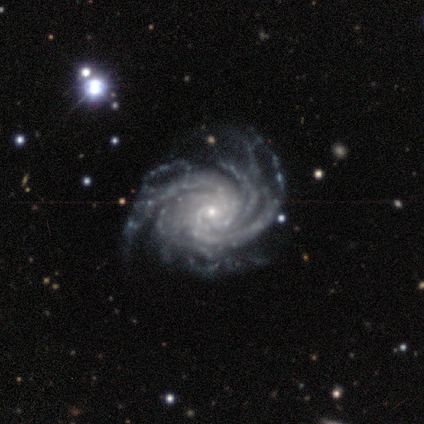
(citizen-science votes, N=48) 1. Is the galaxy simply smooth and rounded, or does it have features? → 98% featured or disk, 2% star or artifact, 0% smooth.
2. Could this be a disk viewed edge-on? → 94% no, 6% yes.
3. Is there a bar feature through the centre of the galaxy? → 77% no, 16% weak, 7% strong.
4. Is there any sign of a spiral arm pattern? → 100% yes, 0% no.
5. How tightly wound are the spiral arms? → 61% tight, 32% medium, 7% loose.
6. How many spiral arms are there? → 45% more than 4, 32% 4, 11% can't tell, 7% 3, 5% 2, 0% 1.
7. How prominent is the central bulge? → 82% small, 16% moderate, 2% none, 0% dominant, 0% large.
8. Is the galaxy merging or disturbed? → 53% none, 30% minor disturbance, 17% major disturbance, 0% merger.